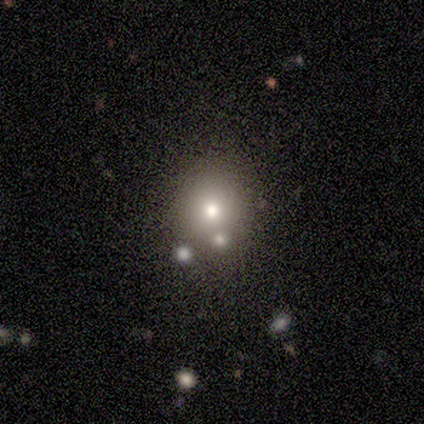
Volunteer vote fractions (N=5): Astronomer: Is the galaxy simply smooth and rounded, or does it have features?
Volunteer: smooth — 80%.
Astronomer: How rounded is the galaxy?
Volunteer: round — 100%.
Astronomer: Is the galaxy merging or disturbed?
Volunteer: none — 75%.